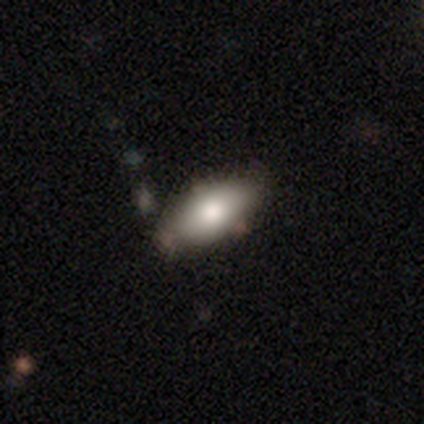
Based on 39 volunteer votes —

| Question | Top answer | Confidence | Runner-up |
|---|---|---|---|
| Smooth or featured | smooth | 72% | featured or disk (21%) |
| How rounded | in between | 96% | round (4%) |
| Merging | none | 81% | minor disturbance (14%) |